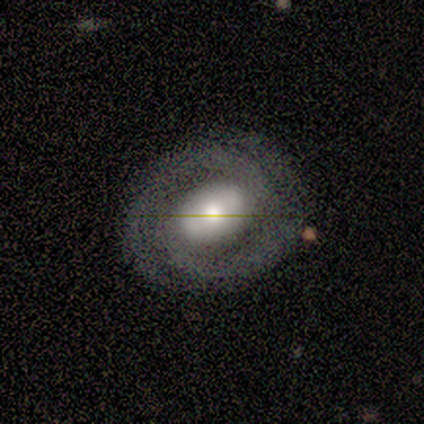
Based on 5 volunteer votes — smooth-or-featured: featured or disk: 80% | smooth: 20% | star or artifact: 0%
  disk-edge-on: no: 100% | yes: 0%
    bar: strong: 75% | no: 25% | weak: 0%
    has-spiral-arms: yes: 100% | no: 0%
      spiral-winding: tight: 50% | medium: 25% | loose: 25%
      spiral-arm-count: 2: 50% | 3: 25% | can't tell: 25% | 1: 0% | 4: 0% | more than 4: 0%
    bulge-size: large: 50% (tied) | moderate: 50% (tied) | dominant: 0% | small: 0% | none: 0%
  merging: none: 60% | major disturbance: 40% | minor disturbance: 0% | merger: 0%